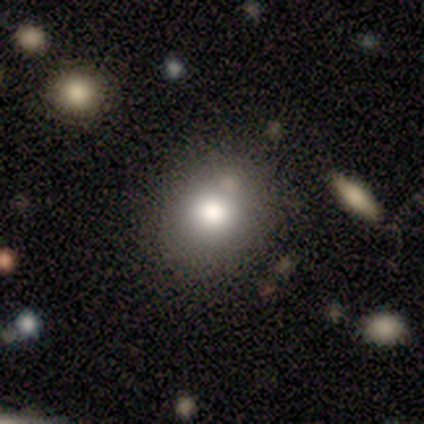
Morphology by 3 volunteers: type=featured or disk (67%); edge-on=no (100%); bar=no (100%); spiral arms=no (100%); bulge=dominant (50%, tied with moderate); merging=none (100%).